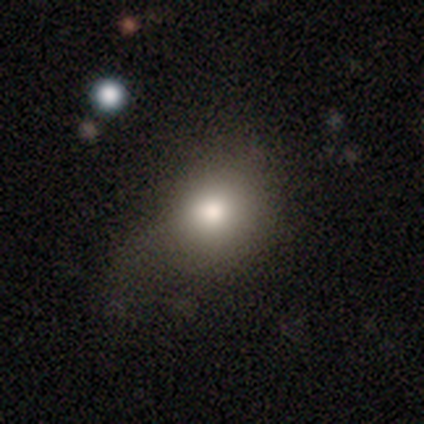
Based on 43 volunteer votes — smooth 81%, star or artifact 14%, featured or disk 5%. Down the decision tree: how rounded — round (60%); merging — none (46%).